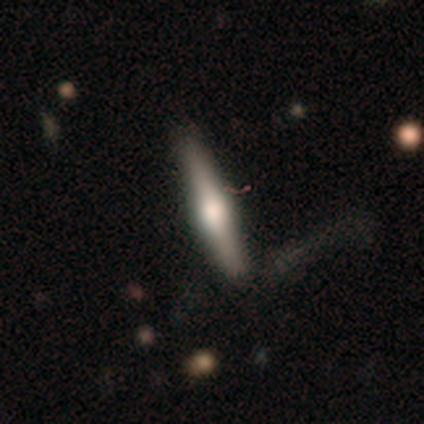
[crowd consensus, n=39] Morphology: type=featured or disk (54%); edge-on=yes (100%); edge-on bulge=rounded (76%); merging=none (72%).